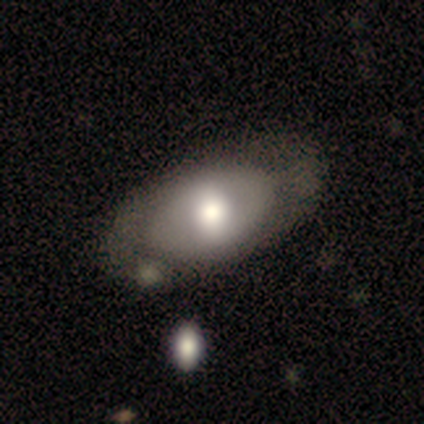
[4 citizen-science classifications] Smooth or featured?
  - smooth: 100% *
  - featured or disk: 0%
  - star or artifact: 0%
How rounded?
  - in between: 75% *
  - cigar-shaped: 25%
  - round: 0%
Merging?
  - none: 75% *
  - minor disturbance: 25%
  - major disturbance: 0%
  - merger: 0%